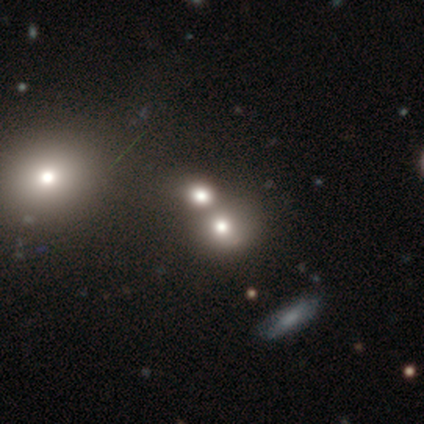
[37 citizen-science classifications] Morphology: type=smooth (73%); roundness=round (70%); merging=merger (74%).